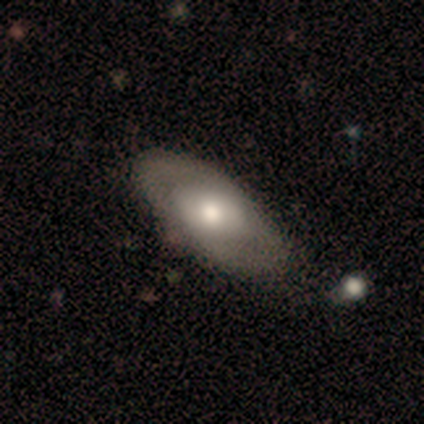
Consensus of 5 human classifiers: smooth 60%, featured or disk 40%, star or artifact 0%. Down the decision tree: how rounded — in between (100%); merging — none (100%).